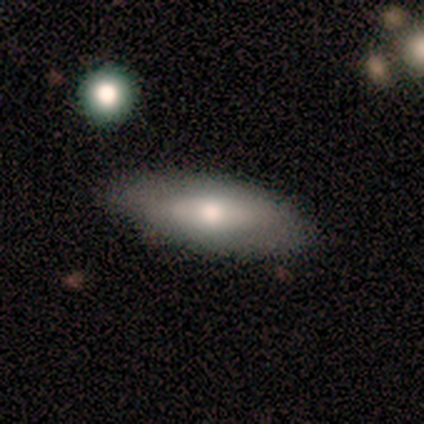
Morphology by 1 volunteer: Smooth or featured?
  - star or artifact: 100% *
  - smooth: 0%
  - featured or disk: 0%